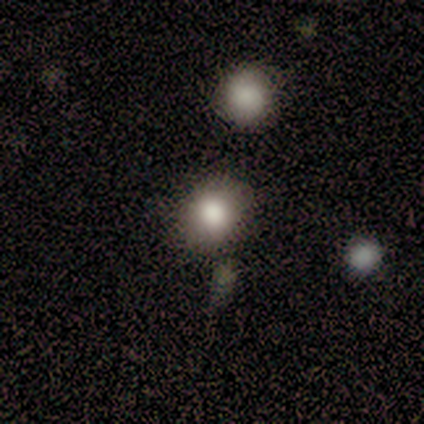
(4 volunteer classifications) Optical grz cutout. It shows a smooth galaxy with no disk features (100%) that is round (75%). Merging: none (75%).